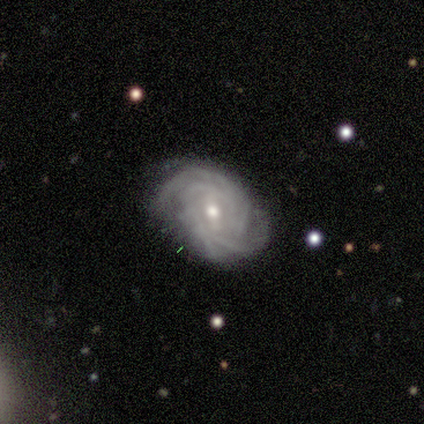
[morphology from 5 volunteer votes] This is likely a featured or disk galaxy (60%). It is clearly not viewed edge-on (100%). Bar: likely weak (67%). Spiral arm pattern: clearly yes (100%). Spiral arm count: marginally 3 (33%, tied with 4 and can't tell). Spiral winding: likely tight (67%). Central bulge: likely small (67%). Merging: likely none (60%).